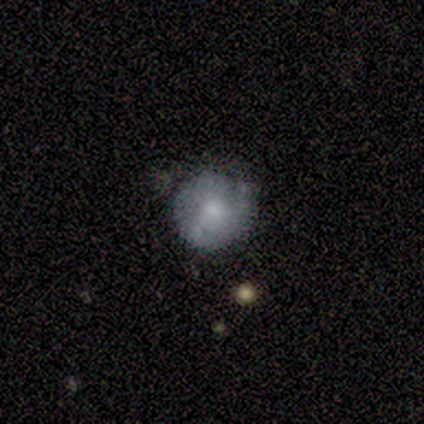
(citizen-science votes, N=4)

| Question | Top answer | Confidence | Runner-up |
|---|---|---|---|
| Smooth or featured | smooth | 50% | featured or disk (25%) |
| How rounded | round | 100% | — |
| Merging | none | 100% | — |